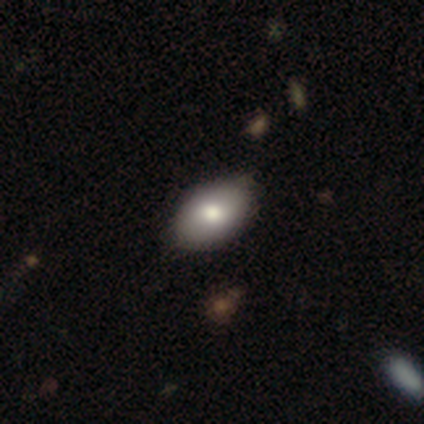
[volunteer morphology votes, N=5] Smooth or featured? 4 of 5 (80%) said smooth. How rounded? 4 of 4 (100%) said in between. Merging? 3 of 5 (60%) said none.